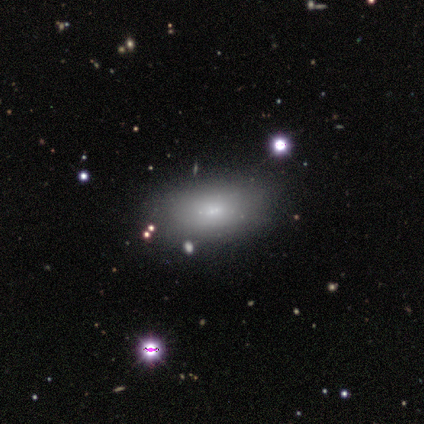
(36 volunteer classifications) This appears to be a smooth galaxy with no disk features (69%) that is in between round and cigar-shaped (84%). Merging: none (81%).